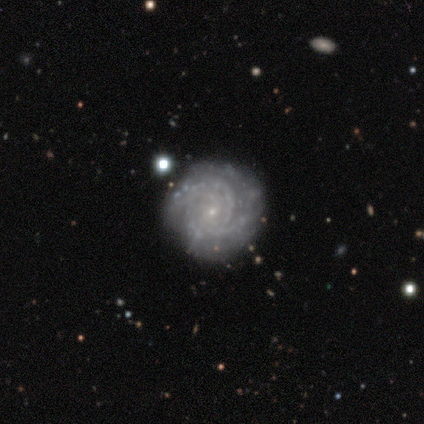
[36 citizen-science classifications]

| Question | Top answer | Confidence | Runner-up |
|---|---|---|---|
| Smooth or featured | featured or disk | 86% | smooth (8%) |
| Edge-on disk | no | 97% | yes (3%) |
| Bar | no | 90% | weak (7%) |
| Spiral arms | yes | 97% | no (3%) |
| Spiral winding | tight | 69% | medium (28%) |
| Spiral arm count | can't tell | 45% | 3 (28%) |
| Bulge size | small | 93% | moderate (3%) |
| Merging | none | 76% | minor disturbance (21%) |